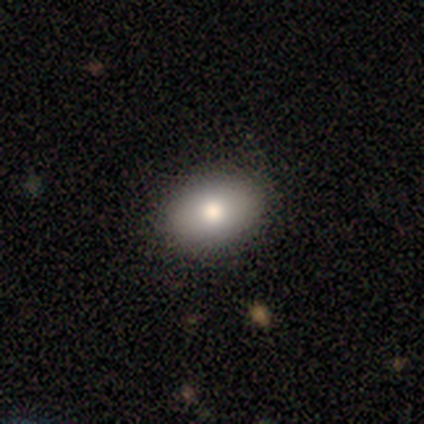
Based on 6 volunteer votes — Smooth or featured? smooth (100%)
How rounded? in between (67%)
Merging? none (83%)